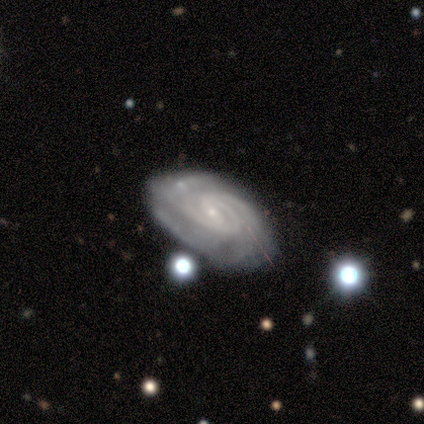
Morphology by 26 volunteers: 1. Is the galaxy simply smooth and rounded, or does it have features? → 88% featured or disk, 8% star or artifact, 4% smooth.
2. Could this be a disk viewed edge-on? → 96% no, 4% yes.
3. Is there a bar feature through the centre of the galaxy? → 55% no, 32% weak, 14% strong.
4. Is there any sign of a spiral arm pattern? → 95% yes, 5% no.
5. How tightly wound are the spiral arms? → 62% tight, 33% medium, 5% loose.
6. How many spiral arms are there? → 29% 2 (tied), 29% 3 (tied), 19% 4, 14% can't tell, 10% more than 4, 0% 1.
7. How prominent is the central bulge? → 86% small, 9% moderate, 5% none, 0% dominant, 0% large.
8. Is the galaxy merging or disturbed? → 29% none, 21% minor disturbance, 4% major disturbance, 4% merger.